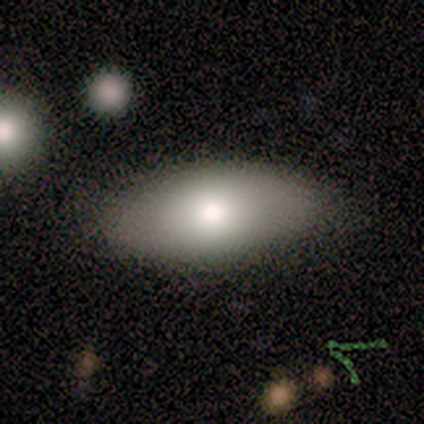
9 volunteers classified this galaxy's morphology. A smooth galaxy with no disk features (78%) that is in between round and cigar-shaped (100%).

Vote fractions:
- Smooth or featured? smooth: 78% / featured or disk: 22% / star or artifact: 0%
- How rounded? in between: 100% / round: 0% / cigar-shaped: 0%
- Merging? none: 89% / minor disturbance: 11% / major disturbance: 0% / merger: 0%